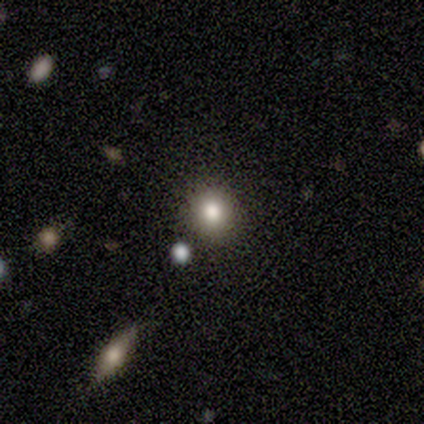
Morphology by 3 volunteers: A smooth galaxy with no disk features (33%, tied with featured or disk and star or artifact) that is round (100%). Merging: none (100%).